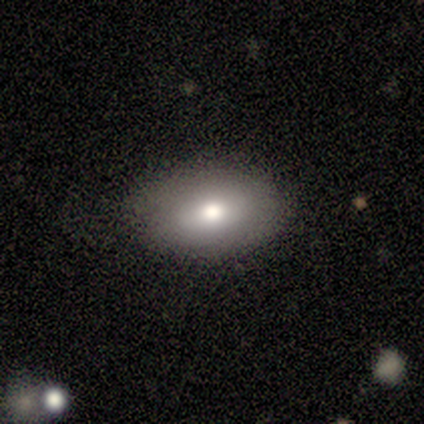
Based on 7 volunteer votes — This appears to be a smooth galaxy with no disk features (57%) that is in between round and cigar-shaped (75%). Merging: none (67%).